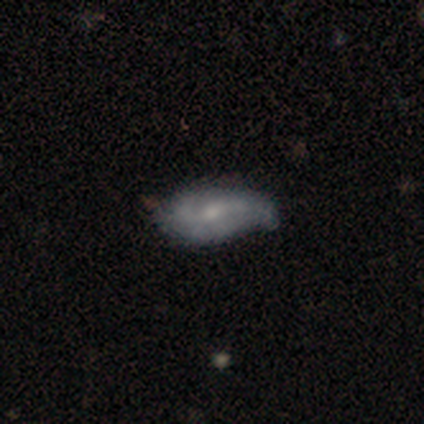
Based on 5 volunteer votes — This is likely a featured or disk galaxy (60%). It is clearly not viewed edge-on (100%). Bar: likely no (67%). Spiral arm pattern: clearly yes (100%). Spiral arm count: likely 2 (67%). Spiral winding: likely loose (67%). Central bulge: clearly small (100%). Merging: likely none (60%).